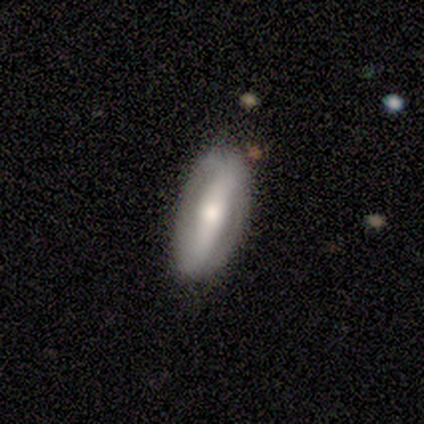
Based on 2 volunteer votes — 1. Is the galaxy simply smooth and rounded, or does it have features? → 100% smooth, 0% featured or disk, 0% star or artifact.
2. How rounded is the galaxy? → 100% in between, 0% round, 0% cigar-shaped.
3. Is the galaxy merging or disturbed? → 100% none, 0% minor disturbance, 0% major disturbance, 0% merger.